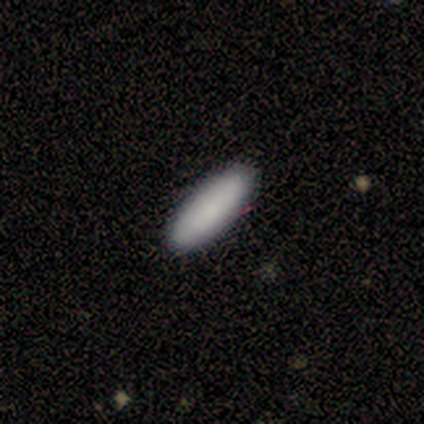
smooth_or_featured: smooth (p=1.00)
how_rounded: cigar-shaped (p=0.67) [alt: in between p=0.33]
merging: none (p=1.00)